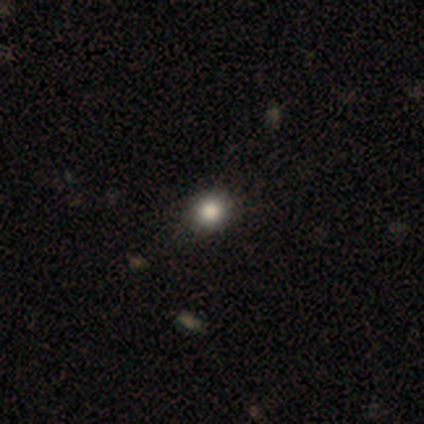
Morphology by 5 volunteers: Q: Smooth or featured?
A: smooth (60%); runner-up: star or artifact (40%)
Q: How rounded?
A: in between (67%); runner-up: round (33%)
Q: Merging?
A: none (67%); runner-up: minor disturbance (33%)